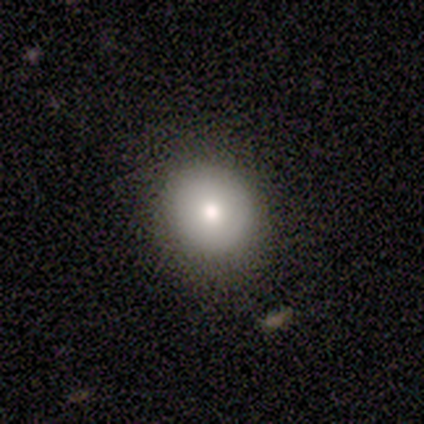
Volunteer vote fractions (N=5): Smooth or featured: smooth — 80% (featured or disk — 20%)
How rounded: round — 100%
Merging: none — 80% (minor disturbance — 20%)